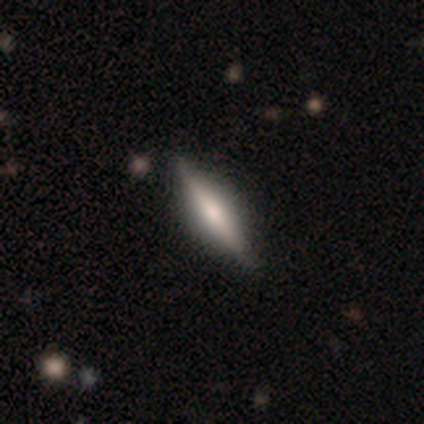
This is clearly a featured or disk galaxy (80%). It is clearly viewed edge-on (100%). Edge-on bulge: likely rounded (75%). Merging: clearly none (100%).